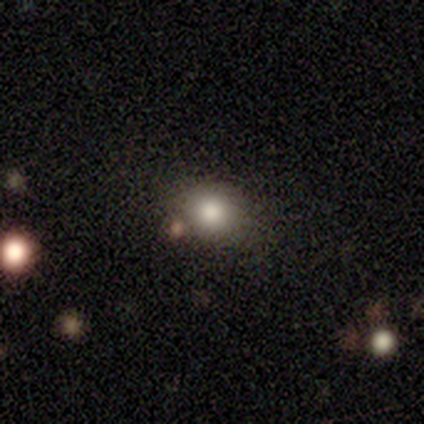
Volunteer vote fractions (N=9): Smooth or featured: smooth — 78% (featured or disk — 22%)
How rounded: round — 57% (in between — 43%)
Merging: none — 44% (minor disturbance — 33%)